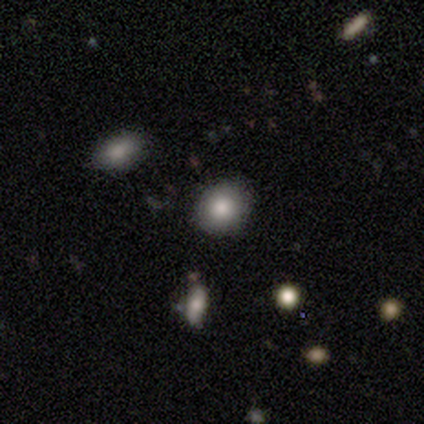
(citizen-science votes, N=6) Smooth or featured?
  - smooth: 83% *
  - star or artifact: 17%
  - featured or disk: 0%
How rounded?
  - round: 80% *
  - in between: 20%
  - cigar-shaped: 0%
Merging?
  - none: 100% *
  - minor disturbance: 0%
  - major disturbance: 0%
  - merger: 0%